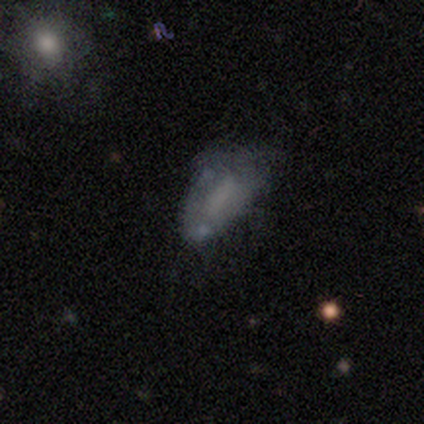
smooth_or_featured: smooth (p=0.40) [tied with: featured or disk p=0.40]
how_rounded: in between (p=1.00)
merging: minor disturbance (p=0.75) [alt: major disturbance p=0.25]